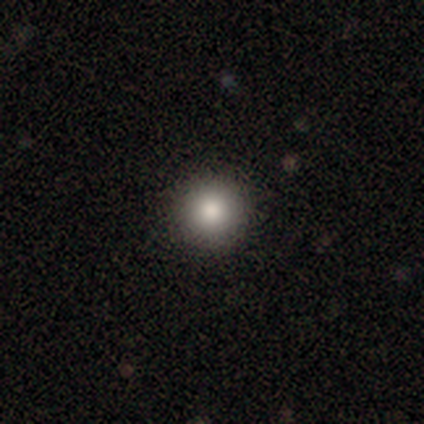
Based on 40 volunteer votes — Smooth or featured? 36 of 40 (90%) said smooth. How rounded? 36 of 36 (100%) said round. Merging? 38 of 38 (100%) said none.